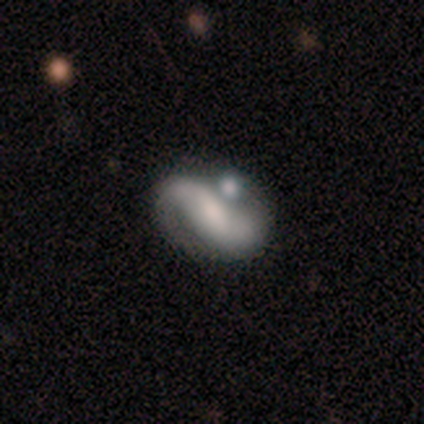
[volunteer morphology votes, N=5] Volunteers were most divided on "bulge size" (2-way tie): moderate: 50%, small: 50%, dominant: 0%, large: 0%, none: 0%. More confident: edge-on disk — no (100%); spiral arms — yes (100%); spiral winding — loose (100%); spiral arm count — 2 (100%); smooth or featured — featured or disk (80%); merging — none (80%); bar — weak (50%).